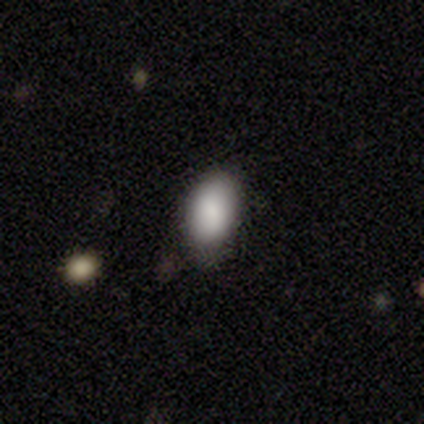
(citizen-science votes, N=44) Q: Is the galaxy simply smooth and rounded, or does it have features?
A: smooth — 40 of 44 (91%).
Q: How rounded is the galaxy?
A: in between — 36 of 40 (90%).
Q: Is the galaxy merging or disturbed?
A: none — 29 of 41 (71%).